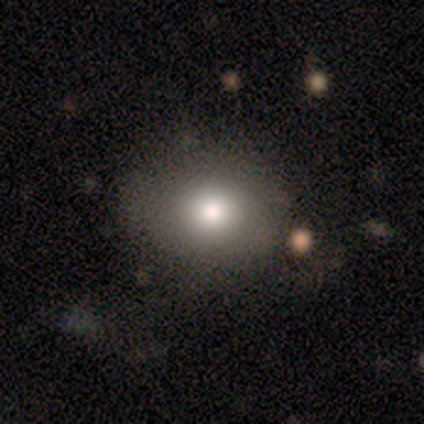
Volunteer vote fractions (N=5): smooth_or_featured: smooth (p=0.80) [alt: featured or disk p=0.20]
how_rounded: in between (p=0.75) [alt: cigar-shaped p=0.25]
merging: none (p=0.80) [alt: minor disturbance p=0.20]